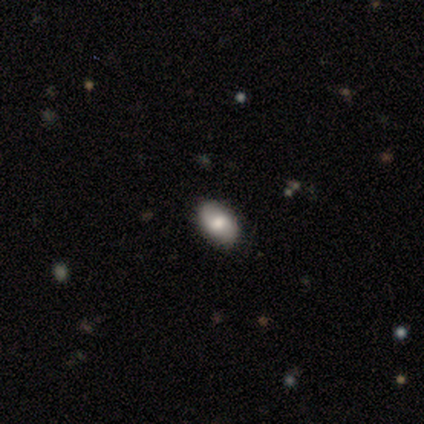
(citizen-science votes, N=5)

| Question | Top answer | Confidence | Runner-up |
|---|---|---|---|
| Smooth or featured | smooth | 80% | featured or disk (20%) |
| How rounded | in between | 100% | — |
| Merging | none | 80% | minor disturbance (20%) |